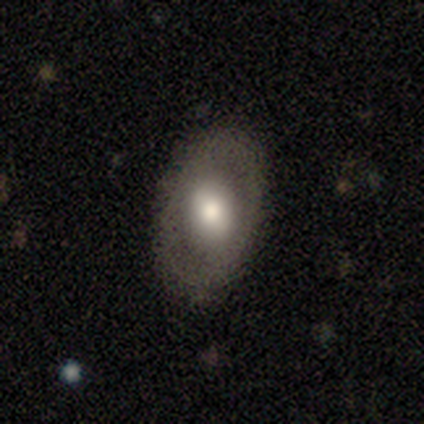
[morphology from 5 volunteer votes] smooth 80%, featured or disk 20%, star or artifact 0%. Down the decision tree: how rounded — in between (100%); merging — none (80%).